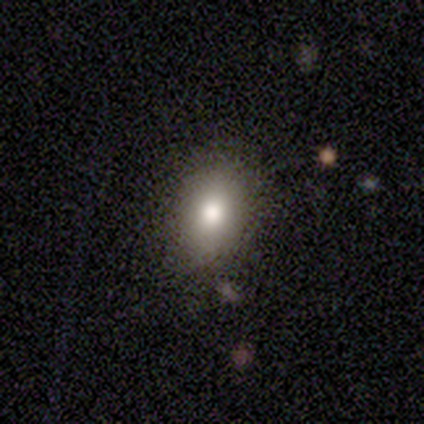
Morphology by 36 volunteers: smooth 75%, star or artifact 19%, featured or disk 6%. Down the decision tree: how rounded — in between (85%); merging — none (83%).